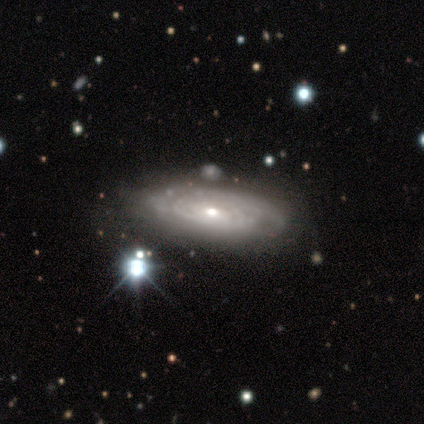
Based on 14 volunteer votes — Q: Smooth or featured?
A: featured or disk (64%); runner-up: smooth (29%)
Q: Edge-on disk?
A: no (78%); runner-up: yes (22%)
Q: Bar?
A: no (86%); runner-up: weak (14%)
Q: Spiral arms?
A: yes (100%)
Q: Spiral winding?
A: tight (86%); runner-up: loose (14%)
Q: Spiral arm count?
A: can't tell (71%); runner-up: 2 (29%)
Q: Bulge size?
A: moderate (43%); tied with: small (43%)
Q: Merging?
A: none (31%); runner-up: minor disturbance (15%)